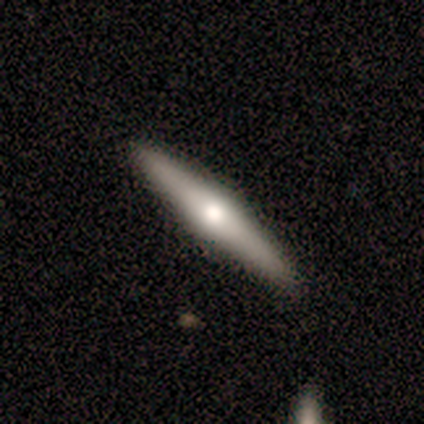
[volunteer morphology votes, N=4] Smooth or featured? 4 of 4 (100%) said featured or disk. Edge-on disk? 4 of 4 (100%) said yes. Edge-on bulge? 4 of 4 (100%) said rounded. Merging? 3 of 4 (75%) said none.